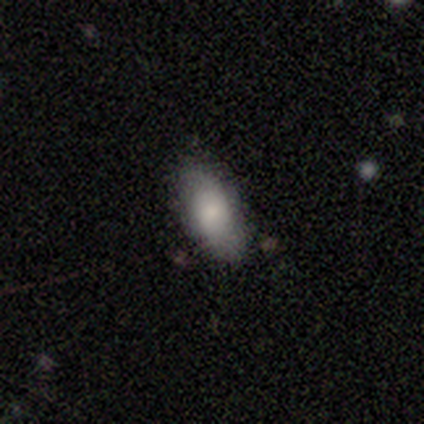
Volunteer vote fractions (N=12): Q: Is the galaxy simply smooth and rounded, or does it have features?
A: smooth — 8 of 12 (67%).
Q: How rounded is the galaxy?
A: in between — 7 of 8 (88%).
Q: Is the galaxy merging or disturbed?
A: none — 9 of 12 (75%).